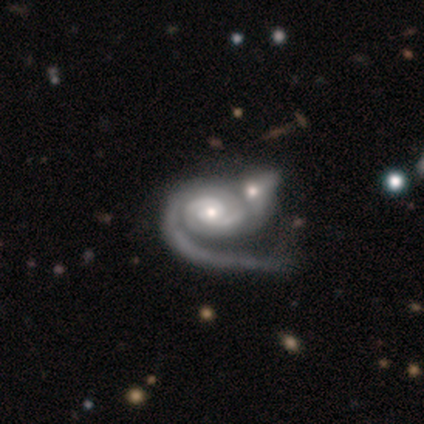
Overall: featured or disk (96%). Edge-on disk: no (100%). Bar: no (70%). Spiral arms: yes (95%). Spiral arm count: 2 (44%; 1 36%). Spiral winding: tight (55%; medium 29%). Bulge size: moderate (55%; small 39%). Merging: merger (56%; none 20%).